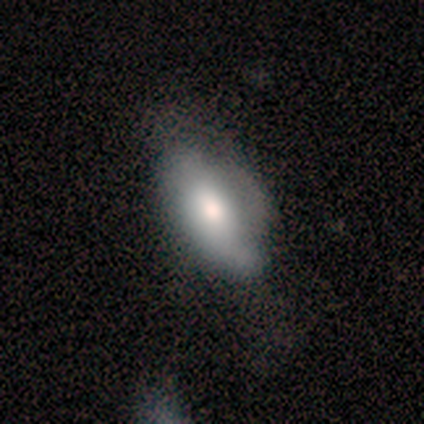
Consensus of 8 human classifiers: This appears to be a smooth galaxy with no disk features (88%) that is in between round and cigar-shaped (86%). Merging: major disturbance (50%).